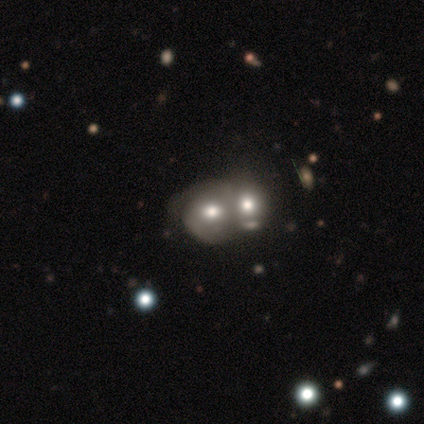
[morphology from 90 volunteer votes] Smooth or featured? 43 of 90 (48%) said smooth. How rounded? 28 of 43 (65%) said round. Merging? 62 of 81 (77%) said merger.